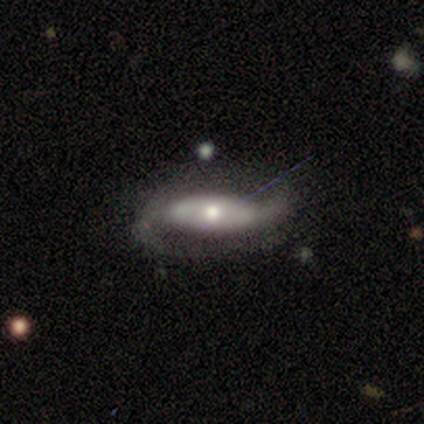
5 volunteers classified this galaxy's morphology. featured or disk 100%, smooth 0%, star or artifact 0%. Down the decision tree: edge-on disk — no (80%); bar — strong (75%); spiral arms — yes (100%); spiral arm count — 2 (75%); spiral winding — loose (50%); bulge size — moderate (75%); merging — none (100%).